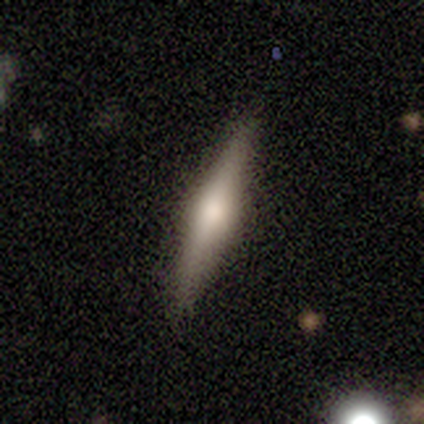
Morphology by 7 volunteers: Smooth or featured: featured or disk — 57% (star or artifact — 29%)
Edge-on disk: yes — 100%
Edge-on bulge: rounded — 75% (boxy — 25%)
Merging: none — 100%